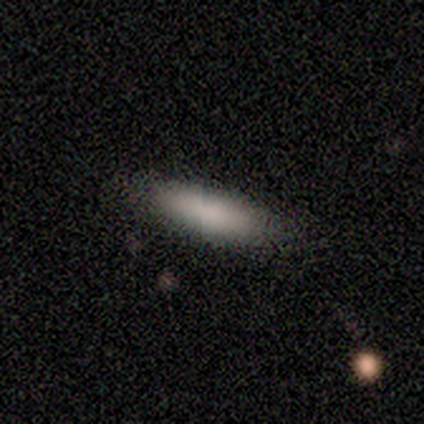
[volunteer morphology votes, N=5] smooth_or_featured: smooth (p=1.00)
how_rounded: in between (p=0.80) [alt: cigar-shaped p=0.20]
merging: none (p=1.00)